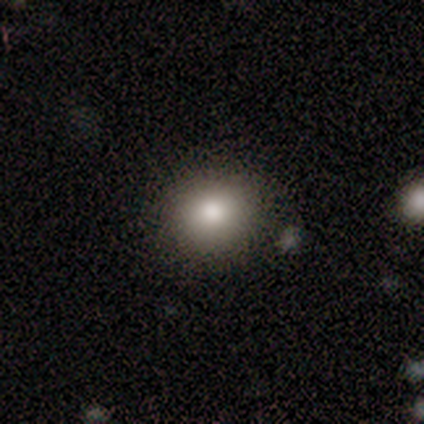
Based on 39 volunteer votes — smooth-or-featured: smooth: 82% | featured or disk: 15% | star or artifact: 3%
  how-rounded: round: 78% | in between: 22% | cigar-shaped: 0%
  merging: none: 87% | minor disturbance: 11% | merger: 3% | major disturbance: 0%